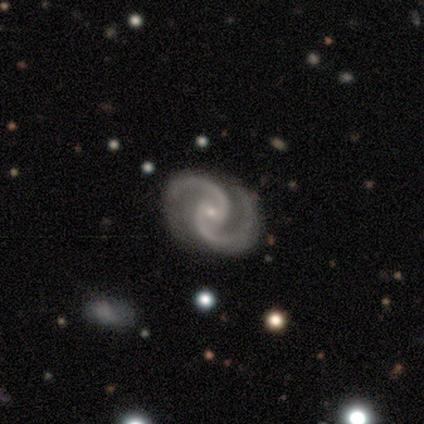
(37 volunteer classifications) A featured or disk galaxy (95%) with no bar (60%), 2 (100%) medium (74%) spiral arms (100%) and a small central bulge (74%).

Vote fractions:
- Smooth or featured? featured or disk: 95% / smooth: 3% / star or artifact: 3%
- Edge-on disk? no: 100% / yes: 0%
- Bar? no: 60% / weak: 34% / strong: 6%
- Spiral arms? yes: 100% / no: 0%
- Spiral winding? medium: 74% / tight: 17% / loose: 9%
- Spiral arm count? 2: 100% / 1: 0% / 3: 0% / 4: 0% / more than 4: 0% / can't tell: 0%
- Bulge size? small: 74% / moderate: 26% / dominant: 0% / large: 0% / none: 0%
- Merging? none: 61% / minor disturbance: 11% / major disturbance: 3% / merger: 0%